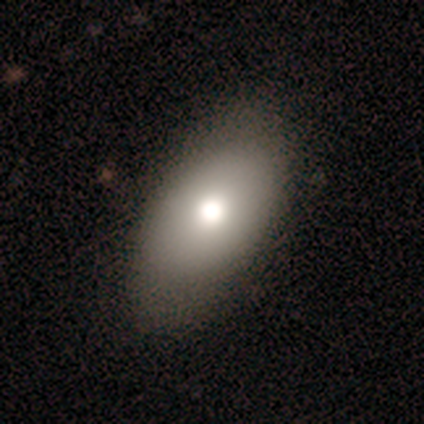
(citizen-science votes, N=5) Morphology: type=smooth (80%); roundness=in between (100%); merging=none (80%).